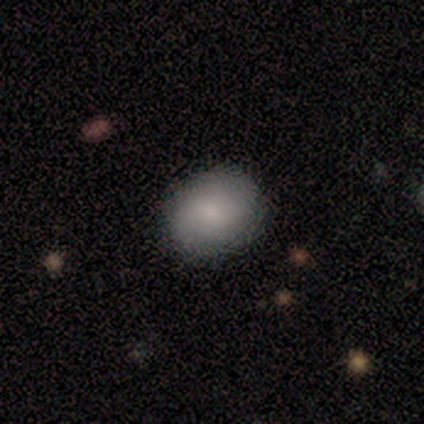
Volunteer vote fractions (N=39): smooth-or-featured: smooth: 85% | featured or disk: 13% | star or artifact: 3%
  how-rounded: round: 52% | in between: 48% | cigar-shaped: 0%
  merging: none: 92% | minor disturbance: 5% | major disturbance: 3% | merger: 0%